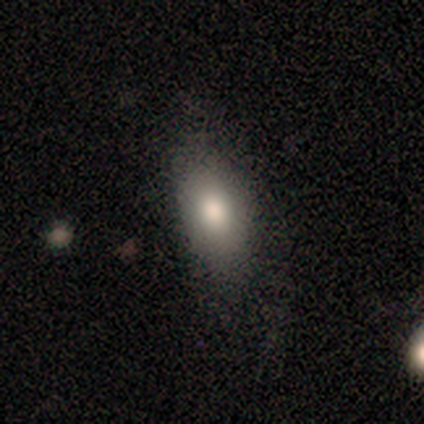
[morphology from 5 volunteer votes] type=smooth (100%); roundness=in between (100%); merging=none (100%).